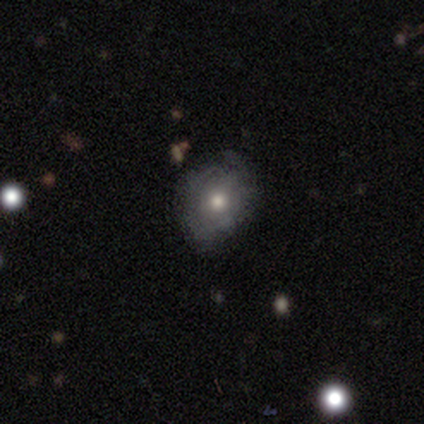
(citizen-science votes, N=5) Smooth or featured? 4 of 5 (80%) said smooth. How rounded? 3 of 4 (75%) said in between. Merging? 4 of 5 (80%) said none.